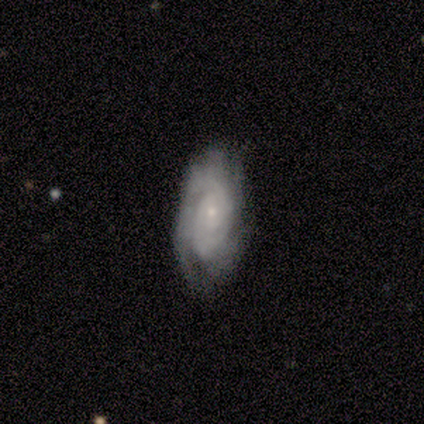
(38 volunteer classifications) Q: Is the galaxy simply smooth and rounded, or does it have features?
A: featured or disk — 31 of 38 (82%).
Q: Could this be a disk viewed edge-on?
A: no — 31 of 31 (100%).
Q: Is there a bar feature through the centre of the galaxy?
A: no — 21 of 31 (68%).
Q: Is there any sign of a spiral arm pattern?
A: yes — 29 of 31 (94%).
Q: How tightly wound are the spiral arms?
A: tight — 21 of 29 (72%).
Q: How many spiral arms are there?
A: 2 — 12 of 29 (41%).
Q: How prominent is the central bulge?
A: small — 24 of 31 (77%).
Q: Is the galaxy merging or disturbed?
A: none — 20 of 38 (53%).